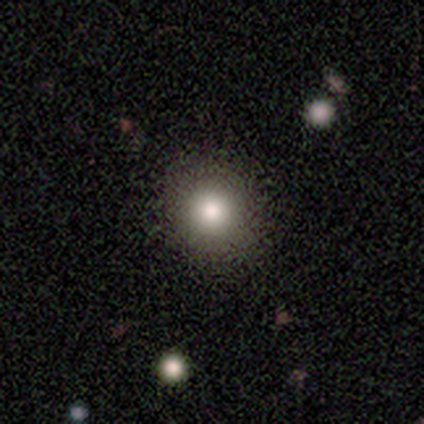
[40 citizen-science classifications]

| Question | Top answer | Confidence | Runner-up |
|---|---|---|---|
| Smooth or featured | smooth | 88% | star or artifact (8%) |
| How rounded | round | 91% | in between (6%) |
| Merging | none | 97% | major disturbance (3%) |